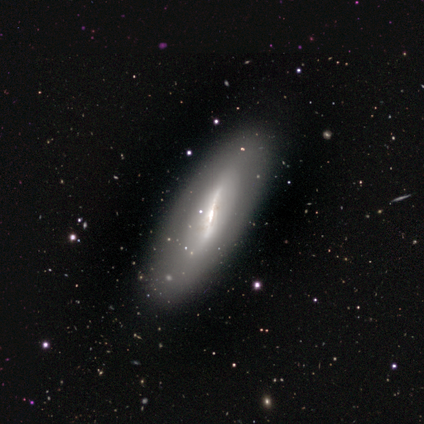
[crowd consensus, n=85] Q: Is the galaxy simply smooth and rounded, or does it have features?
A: featured or disk — 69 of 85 (81%).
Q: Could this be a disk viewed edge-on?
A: no — 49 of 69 (71%).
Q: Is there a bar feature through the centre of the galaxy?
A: strong — 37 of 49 (76%).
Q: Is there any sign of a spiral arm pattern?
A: no — 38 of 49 (78%).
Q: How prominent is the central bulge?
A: small — 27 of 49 (55%).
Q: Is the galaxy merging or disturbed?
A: none — 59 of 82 (72%).